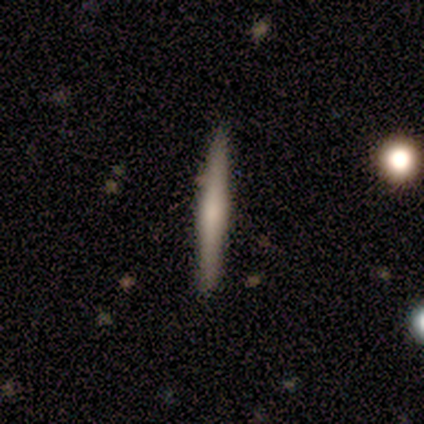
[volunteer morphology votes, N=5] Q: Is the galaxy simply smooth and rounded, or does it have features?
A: featured or disk — 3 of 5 (60%).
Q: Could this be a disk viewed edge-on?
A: yes — 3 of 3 (100%).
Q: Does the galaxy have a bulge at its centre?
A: rounded — 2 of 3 (67%).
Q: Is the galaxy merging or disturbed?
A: none — 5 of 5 (100%).